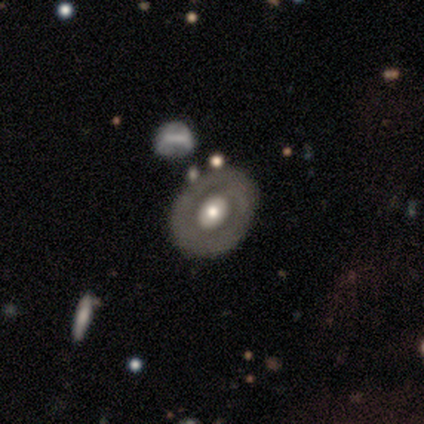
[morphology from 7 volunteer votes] A featured or disk galaxy (86%) with no bar (60%), no spiral arms (80%) and a large central bulge (40%, tied with small).

Vote fractions:
- Smooth or featured? featured or disk: 86% / smooth: 14% / star or artifact: 0%
- Edge-on disk? no: 83% / yes: 17%
- Bar? no: 60% / strong: 20% / weak: 20%
- Spiral arms? no: 80% / yes: 20%
- Bulge size? large: 40% (tied) / small: 40% (tied) / moderate: 20% / dominant: 0% / none: 0%
- Merging? none: 86% / minor disturbance: 14% / major disturbance: 0% / merger: 0%